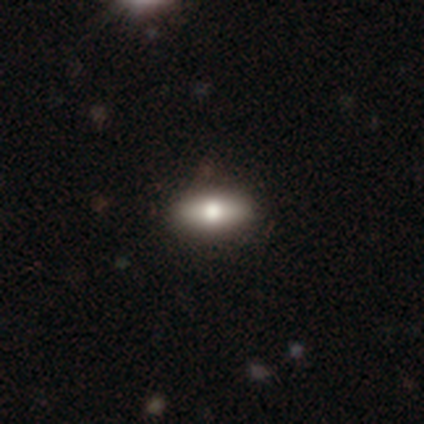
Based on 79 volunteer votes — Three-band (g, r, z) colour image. It shows a smooth galaxy with no disk features (72%) that is in between round and cigar-shaped (93%). Merging: none (44%).